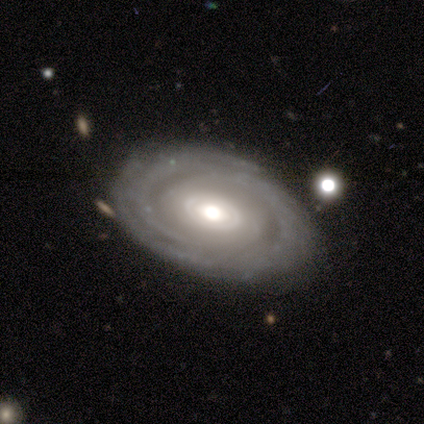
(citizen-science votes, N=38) Smooth or featured? 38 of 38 (100%) said featured or disk. Edge-on disk? 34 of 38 (89%) said no. Bar? 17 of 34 (50%) said no. Spiral arms? 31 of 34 (91%) said yes. Spiral winding? 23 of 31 (74%) said tight. Spiral arm count? 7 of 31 (23%, tied with 3, more than 4 and can't tell) said 2. Bulge size? 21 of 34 (62%) said moderate. Merging? 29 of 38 (76%) said none.